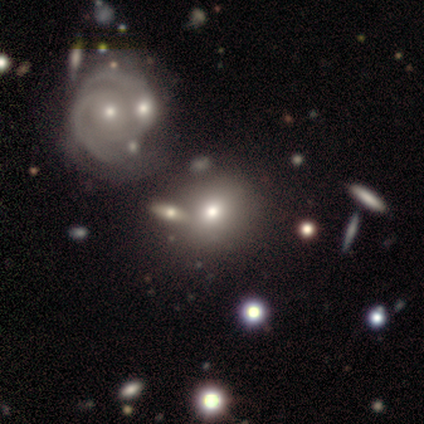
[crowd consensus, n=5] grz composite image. It shows a smooth galaxy with no disk features (100%) that is round (60%). Merging: none (60%).